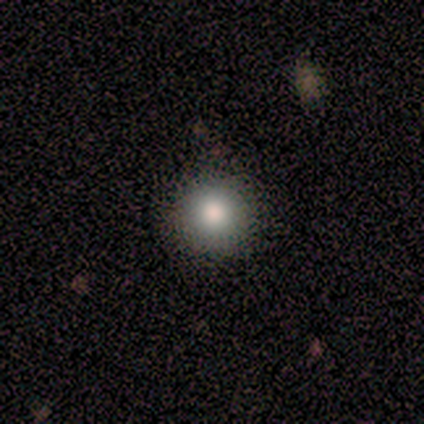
Morphology: type=smooth (100%); roundness=round (100%); merging=none (80%).